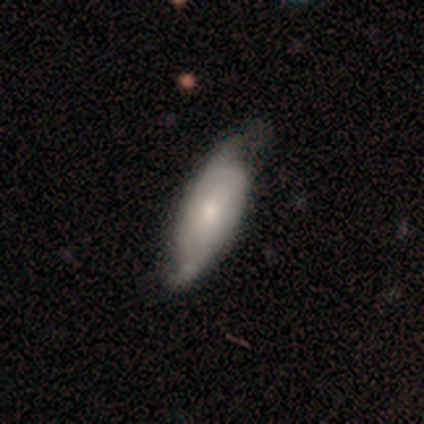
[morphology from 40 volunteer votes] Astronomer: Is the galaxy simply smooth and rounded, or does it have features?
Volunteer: featured or disk — 52% (runner-up: smooth, 45%).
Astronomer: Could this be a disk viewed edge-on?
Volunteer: no — 81%.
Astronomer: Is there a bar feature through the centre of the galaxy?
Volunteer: no — 71%.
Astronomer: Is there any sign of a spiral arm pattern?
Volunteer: yes — 65%.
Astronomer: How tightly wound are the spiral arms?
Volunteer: tight — 45% (runner-up: medium, 27%).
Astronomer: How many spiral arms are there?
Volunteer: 2 — 55% (runner-up: can't tell, 36%).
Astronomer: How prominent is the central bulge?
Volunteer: small — 59% (runner-up: moderate, 35%).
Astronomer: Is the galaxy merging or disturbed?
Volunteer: none — 74%.